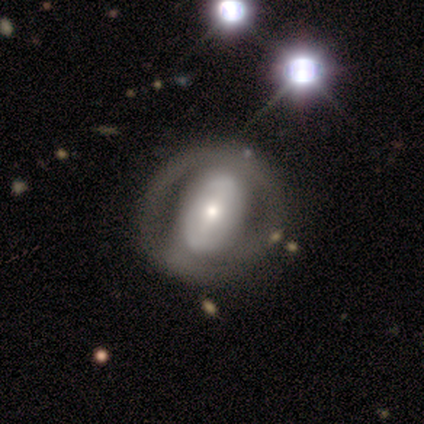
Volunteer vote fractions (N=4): Q: Smooth or featured?
A: featured or disk (100%)
Q: Edge-on disk?
A: no (100%)
Q: Bar?
A: weak (75%); runner-up: strong (25%)
Q: Spiral arms?
A: no (75%); runner-up: yes (25%)
Q: Bulge size?
A: moderate (50%); runner-up: dominant (25%)
Q: Merging?
A: none (75%); runner-up: major disturbance (25%)